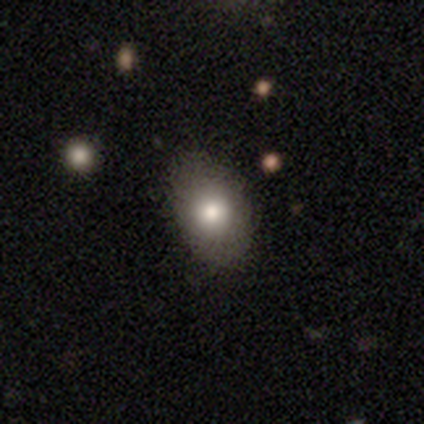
Smooth or featured? 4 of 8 (50%) said smooth. How rounded? 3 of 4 (75%) said in between. Merging? 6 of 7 (86%) said none.